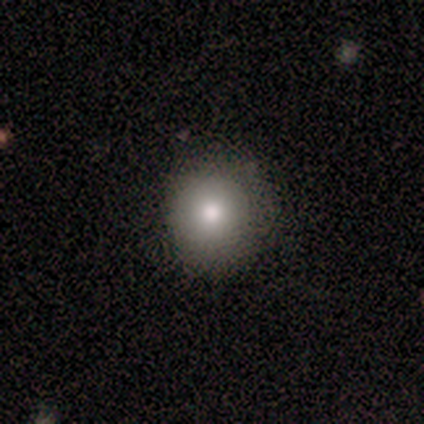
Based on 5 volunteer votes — Q: Smooth or featured?
A: smooth (100%)
Q: How rounded?
A: round (100%)
Q: Merging?
A: none (100%)